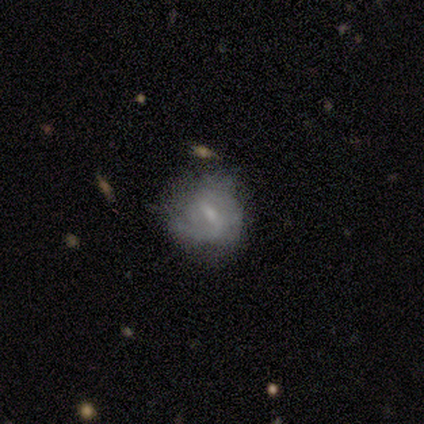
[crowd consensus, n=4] Smooth or featured: smooth — 50% (tied with featured or disk — 50%)
How rounded: round — 100%
Merging: none — 50% (minor disturbance — 25%)